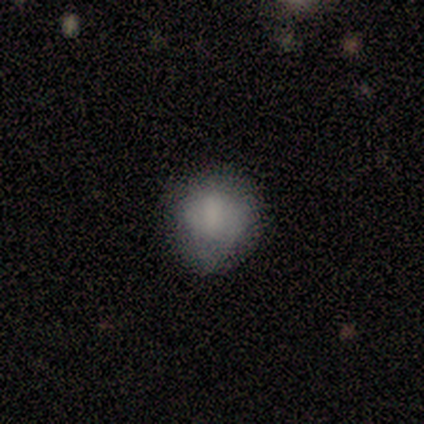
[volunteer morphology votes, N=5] smooth-or-featured: smooth: 80% | featured or disk: 20% | star or artifact: 0%
  how-rounded: round: 75% | in between: 25% | cigar-shaped: 0%
  merging: minor disturbance: 60% | none: 40% | major disturbance: 0% | merger: 0%